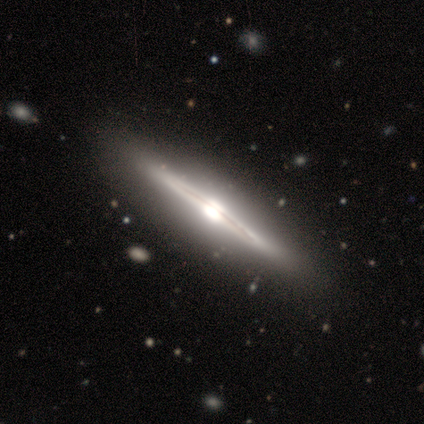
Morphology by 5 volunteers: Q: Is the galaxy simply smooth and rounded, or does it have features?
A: featured or disk — 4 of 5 (80%).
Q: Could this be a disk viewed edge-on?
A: yes — 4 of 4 (100%).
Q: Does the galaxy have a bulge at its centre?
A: boxy — 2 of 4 (50%, tied with rounded).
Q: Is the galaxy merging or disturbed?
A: none — 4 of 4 (100%).